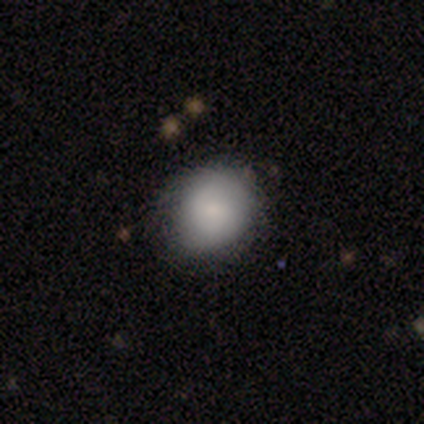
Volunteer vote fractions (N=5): smooth 80%, featured or disk 20%, star or artifact 0%. Down the decision tree: how rounded — round (75%); merging — none (80%).